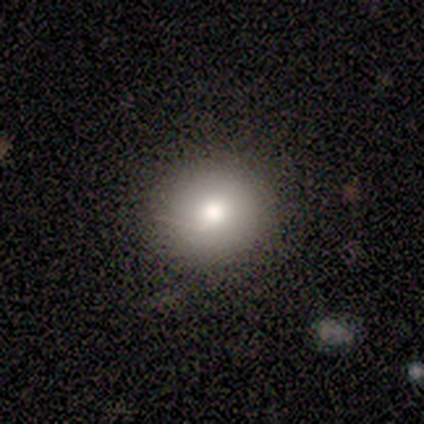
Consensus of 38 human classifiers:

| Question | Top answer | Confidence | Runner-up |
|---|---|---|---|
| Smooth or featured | smooth | 71% | featured or disk (18%) |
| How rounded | round | 96% | in between (4%) |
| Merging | none | 91% | minor disturbance (9%) |